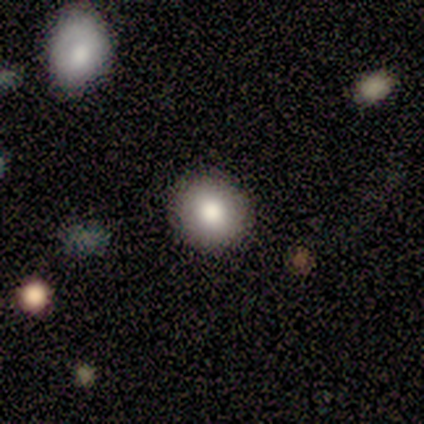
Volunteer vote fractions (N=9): Smooth or featured: smooth — 89% (star or artifact — 11%)
How rounded: round — 100%
Merging: none — 88% (minor disturbance — 12%)